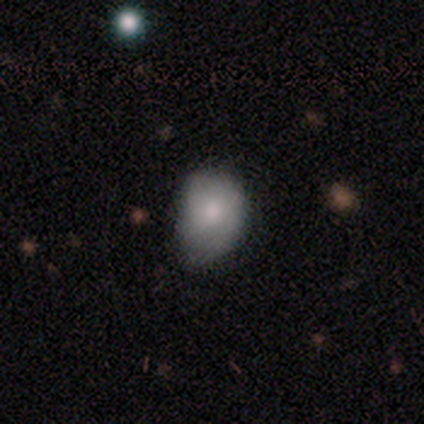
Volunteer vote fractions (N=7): smooth-or-featured: smooth: 86% | featured or disk: 14% | star or artifact: 0%
  how-rounded: in between: 67% | round: 33% | cigar-shaped: 0%
  merging: minor disturbance: 57% | none: 43% | major disturbance: 0% | merger: 0%